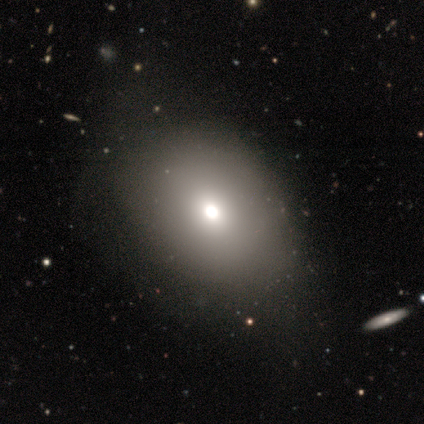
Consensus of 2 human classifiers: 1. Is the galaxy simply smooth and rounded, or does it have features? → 50% smooth (tied), 50% star or artifact (tied), 0% featured or disk.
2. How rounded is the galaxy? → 100% in between, 0% round, 0% cigar-shaped.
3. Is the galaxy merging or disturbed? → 100% none, 0% minor disturbance, 0% major disturbance, 0% merger.